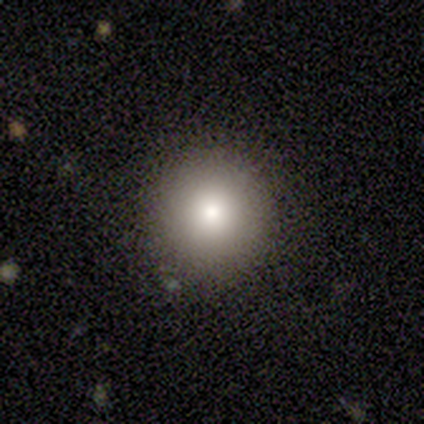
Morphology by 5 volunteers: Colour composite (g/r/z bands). It shows a smooth galaxy with no disk features (100%) that is round (100%). Merging: none (100%).